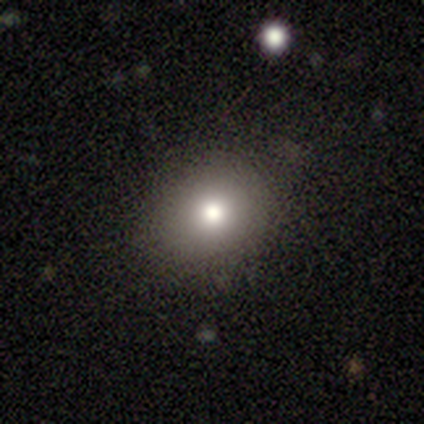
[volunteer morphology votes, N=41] Smooth or featured?
  - smooth: 71% *
  - star or artifact: 22%
  - featured or disk: 7%
How rounded?
  - round: 90% *
  - in between: 10%
  - cigar-shaped: 0%
Merging?
  - none: 91% *
  - minor disturbance: 9%
  - major disturbance: 0%
  - merger: 0%